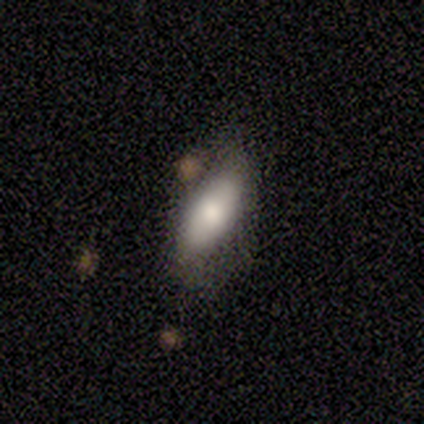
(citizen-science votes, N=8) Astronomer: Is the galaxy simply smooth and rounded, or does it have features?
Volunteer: smooth — 62%.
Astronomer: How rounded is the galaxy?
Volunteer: in between — 80%.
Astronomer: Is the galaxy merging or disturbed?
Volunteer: none — 50% (runner-up: minor disturbance, 38%).